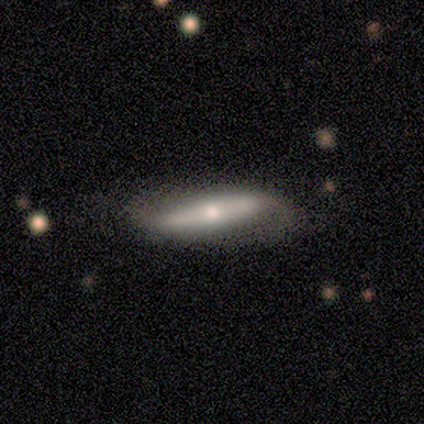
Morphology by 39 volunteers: Smooth or featured?
  - featured or disk: 72% *
  - smooth: 21%
  - star or artifact: 8%
Edge-on disk?
  - no: 61% *
  - yes: 39%
Bar?
  - strong: 53% *
  - no: 41%
  - weak: 6%
Spiral arms?
  - yes: 71% *
  - no: 29%
Spiral winding?
  - medium: 50% *
  - tight: 25%
  - loose: 25%
Spiral arm count?
  - 2: 100% *
  - 1: 0%
  - 3: 0%
  - 4: 0%
  - more than 4: 0%
  - can't tell: 0%
Bulge size?
  - moderate: 47% *
  - small: 29%
  - large: 18%
  - dominant: 6%
  - none: 0%
Merging?
  - none: 47% *
  - minor disturbance: 14%
  - major disturbance: 11%
  - merger: 6%